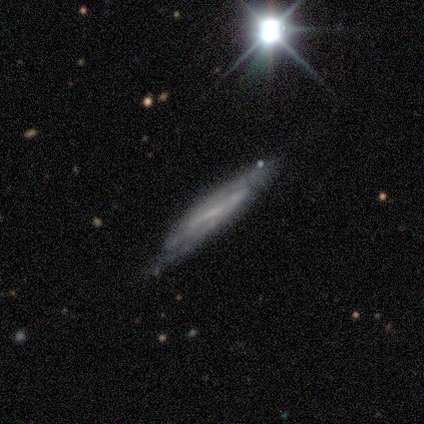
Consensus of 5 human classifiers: This is likely a smooth galaxy (60%). How rounded: clearly cigar-shaped (100%). Merging: likely none (60%).